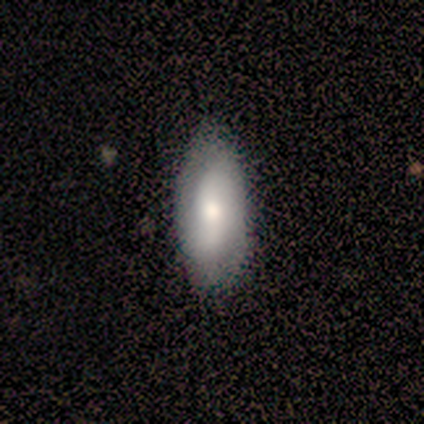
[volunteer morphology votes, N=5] smooth_or_featured: smooth (p=0.60) [alt: featured or disk p=0.40]
how_rounded: in between (p=0.67) [alt: cigar-shaped p=0.33]
merging: none (p=1.00)